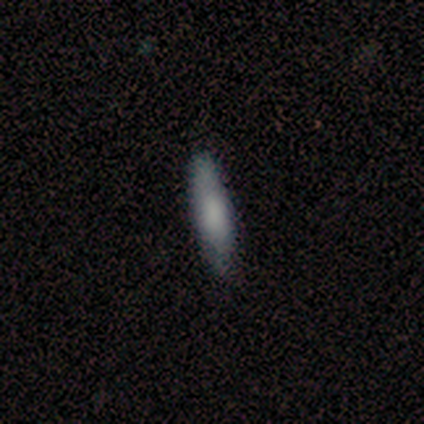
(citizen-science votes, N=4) smooth_or_featured: smooth (p=1.00)
how_rounded: cigar-shaped (p=0.75) [alt: in between p=0.25]
merging: none (p=1.00)